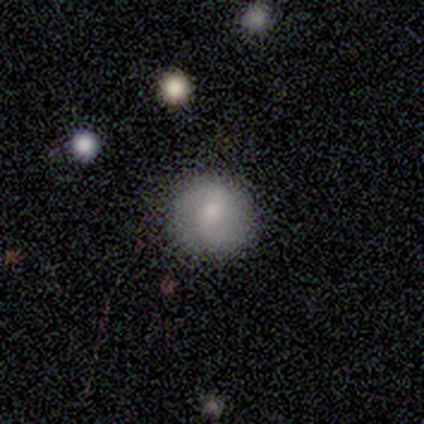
Morphology: type=smooth (57%); roundness=round (100%); merging=none (86%).